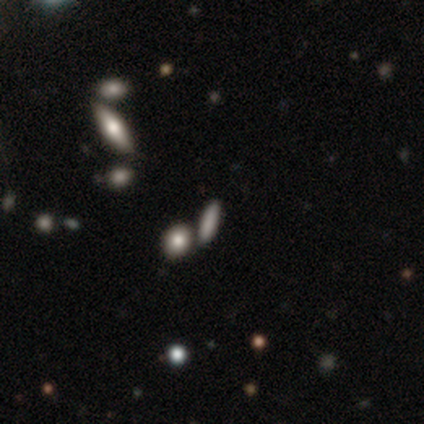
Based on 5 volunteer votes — smooth 60%, star or artifact 40%, featured or disk 0%. Down the decision tree: how rounded — in between (100%); merging — none (67%).